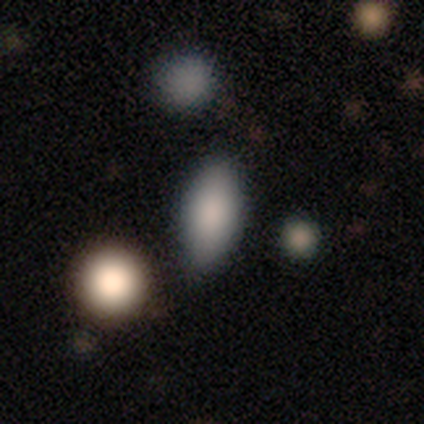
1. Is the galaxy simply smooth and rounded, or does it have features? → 88% smooth, 12% featured or disk, 0% star or artifact.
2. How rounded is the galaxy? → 71% in between, 29% cigar-shaped, 0% round.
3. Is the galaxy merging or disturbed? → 75% none, 25% merger, 0% minor disturbance, 0% major disturbance.